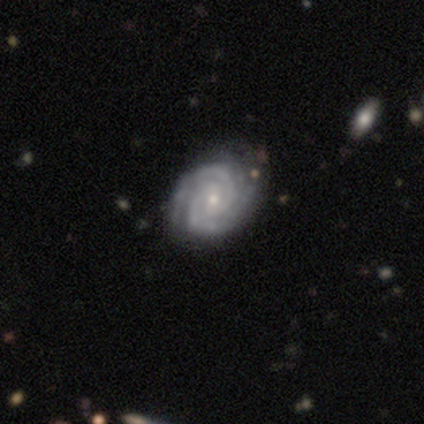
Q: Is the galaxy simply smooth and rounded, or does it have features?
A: featured or disk — 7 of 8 (88%).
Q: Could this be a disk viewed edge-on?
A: no — 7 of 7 (100%).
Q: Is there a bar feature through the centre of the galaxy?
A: weak — 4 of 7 (57%).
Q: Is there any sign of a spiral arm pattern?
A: yes — 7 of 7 (100%).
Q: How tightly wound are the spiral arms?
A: tight — 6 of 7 (86%).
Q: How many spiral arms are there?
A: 2 — 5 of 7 (71%).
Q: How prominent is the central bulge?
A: small — 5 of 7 (71%).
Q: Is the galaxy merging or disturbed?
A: none — 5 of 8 (62%).